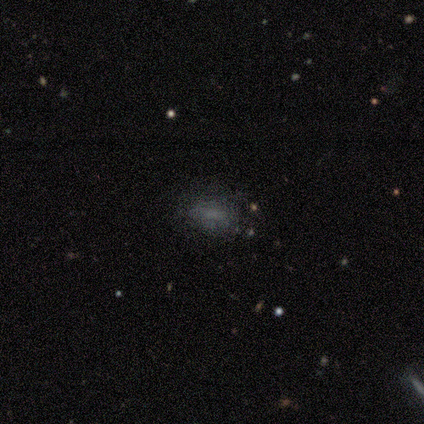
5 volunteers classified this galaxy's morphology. Smooth or featured: smooth — 60% (star or artifact — 40%)
How rounded: in between — 100%
Merging: none — 100%